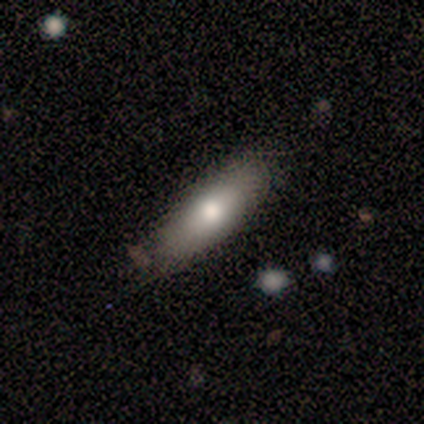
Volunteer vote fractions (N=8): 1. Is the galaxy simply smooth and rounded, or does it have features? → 62% smooth, 25% featured or disk, 12% star or artifact.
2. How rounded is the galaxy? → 60% in between, 40% cigar-shaped, 0% round.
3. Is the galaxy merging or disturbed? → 86% none, 14% minor disturbance, 0% major disturbance, 0% merger.